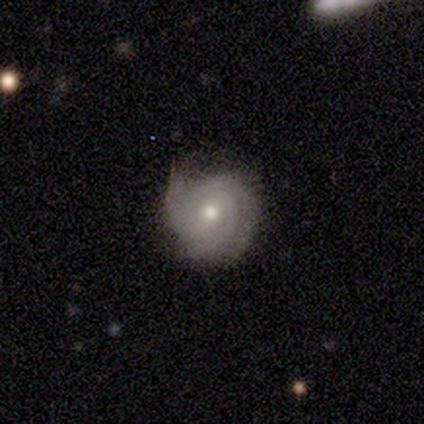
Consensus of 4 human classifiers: Morphology: type=featured or disk (50%); edge-on=no (100%); bar=weak (100%); spiral arms=yes (100%); winding=tight (50%, tied with medium); arm count=3 (100%); bulge=large (50%, tied with moderate); merging=minor disturbance (67%).